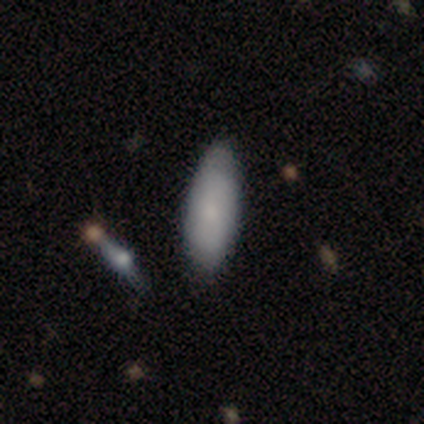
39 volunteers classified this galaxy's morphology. Volunteers were most divided on "how rounded": in between: 78%, cigar-shaped: 22%, round: 0%. More confident: smooth or featured — smooth (92%); merging — none (79%).